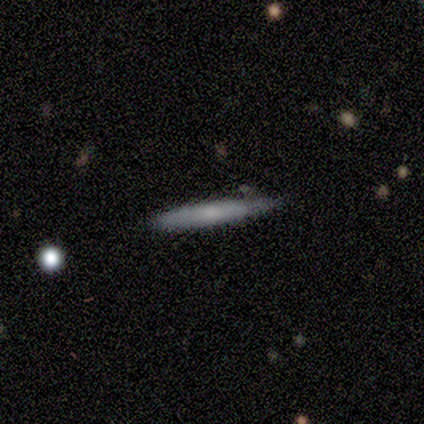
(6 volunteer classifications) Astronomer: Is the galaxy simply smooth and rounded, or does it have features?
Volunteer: smooth — 67%.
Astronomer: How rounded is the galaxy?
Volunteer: cigar-shaped — 100%.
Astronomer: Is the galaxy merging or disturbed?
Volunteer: none — 83%.